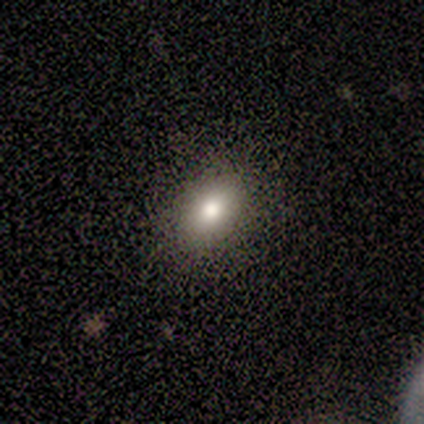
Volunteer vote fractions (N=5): Smooth or featured? smooth (100%)
How rounded? in between (80%)
Merging? none (100%)